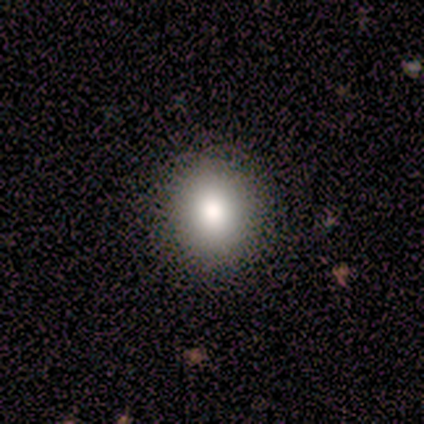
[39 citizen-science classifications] smooth_or_featured: smooth (p=0.82) [alt: featured or disk p=0.10]
how_rounded: round (p=0.75) [alt: in between p=0.25]
merging: none (p=0.83) [alt: minor disturbance p=0.11]